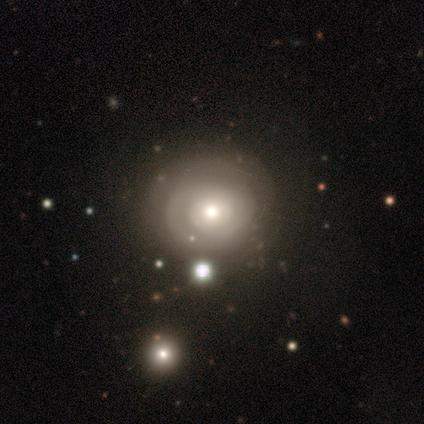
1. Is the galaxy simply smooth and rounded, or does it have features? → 62% featured or disk, 31% smooth, 7% star or artifact.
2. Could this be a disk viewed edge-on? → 96% no, 4% yes.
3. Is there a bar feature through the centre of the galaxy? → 96% no, 4% weak, 0% strong.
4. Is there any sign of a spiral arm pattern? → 59% yes, 41% no.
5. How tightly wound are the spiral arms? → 81% tight, 12% loose, 6% medium.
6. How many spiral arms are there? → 62% can't tell, 31% 2, 6% 3, 0% 1, 0% 4, 0% more than 4.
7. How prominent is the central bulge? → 56% moderate, 22% large, 22% small, 0% dominant, 0% none.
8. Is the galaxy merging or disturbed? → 76% none, 19% minor disturbance, 2% major disturbance, 2% merger.